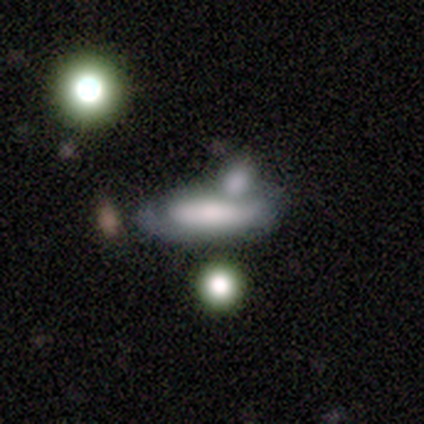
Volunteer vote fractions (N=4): This is possibly a smooth galaxy (50%, tied with featured or disk). How rounded: possibly in between (50%, tied with cigar-shaped). Merging: possibly major disturbance (50%, tied with merger).